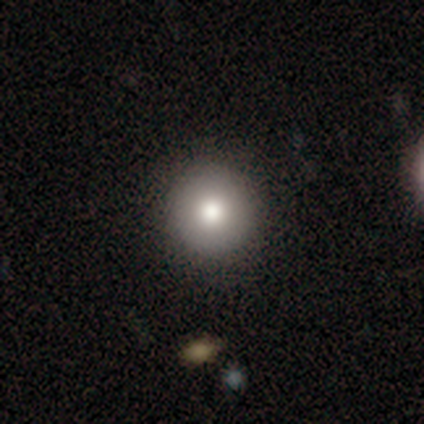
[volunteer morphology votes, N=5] Smooth or featured? smooth (100%)
How rounded? round (80%)
Merging? none (80%)